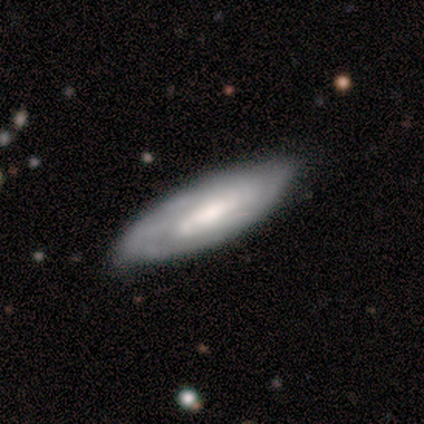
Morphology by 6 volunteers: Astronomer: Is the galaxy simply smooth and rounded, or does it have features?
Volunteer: smooth — 50%, tied with featured or disk at 50%.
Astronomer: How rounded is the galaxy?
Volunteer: in between — 67%.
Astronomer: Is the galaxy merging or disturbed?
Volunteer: none — 67%.